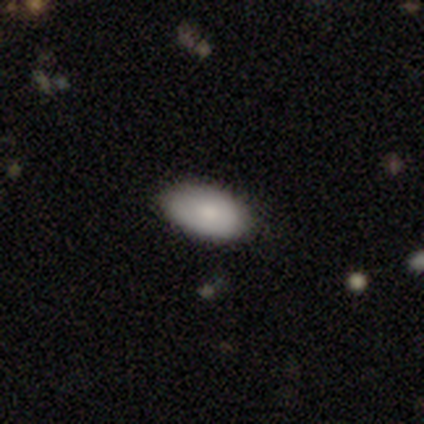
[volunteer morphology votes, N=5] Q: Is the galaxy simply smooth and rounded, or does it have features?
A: smooth — 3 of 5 (60%).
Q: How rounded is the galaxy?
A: in between — 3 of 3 (100%).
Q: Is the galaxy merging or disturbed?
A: none — 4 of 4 (100%).